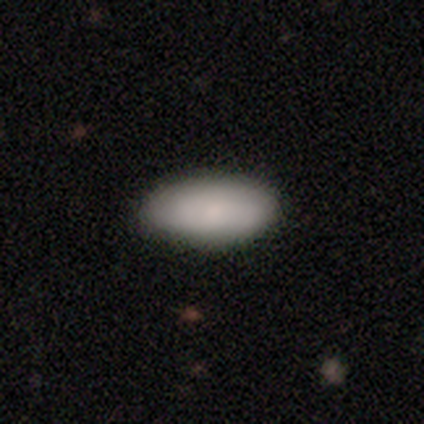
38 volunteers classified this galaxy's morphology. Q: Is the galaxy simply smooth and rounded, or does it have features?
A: smooth — 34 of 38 (89%).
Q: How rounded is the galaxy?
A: in between — 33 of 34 (97%).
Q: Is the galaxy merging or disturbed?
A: none — 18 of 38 (47%).